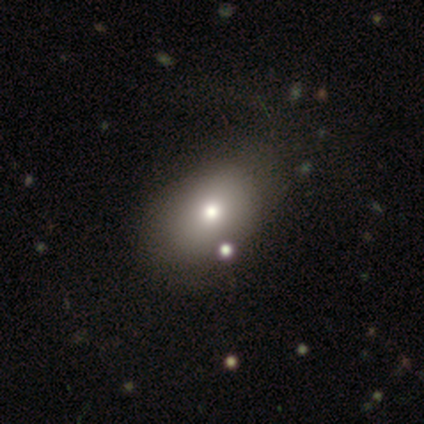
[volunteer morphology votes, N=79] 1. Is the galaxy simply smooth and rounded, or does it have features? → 80% smooth, 15% featured or disk, 5% star or artifact.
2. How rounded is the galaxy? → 84% in between, 16% round, 0% cigar-shaped.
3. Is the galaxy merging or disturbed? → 36% none, 8% minor disturbance, 5% merger, 1% major disturbance.